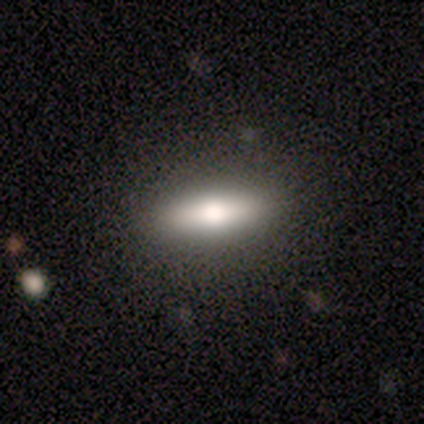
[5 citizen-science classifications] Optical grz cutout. It shows a smooth galaxy with no disk features (80%) that is in between round and cigar-shaped (50%, tied with cigar-shaped). Merging: none (100%).